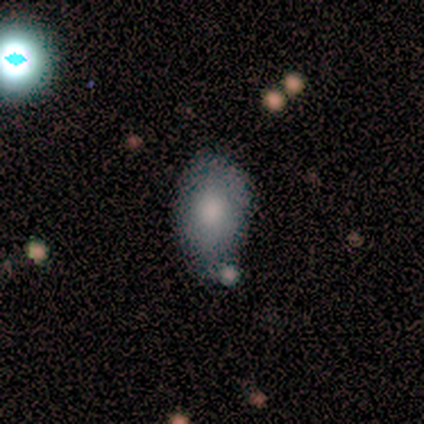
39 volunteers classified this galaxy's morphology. A smooth galaxy with no disk features (82%) that is in between round and cigar-shaped (94%).

Vote fractions:
- Smooth or featured? smooth: 82% / featured or disk: 13% / star or artifact: 5%
- How rounded? in between: 94% / round: 6% / cigar-shaped: 0%
- Merging? none: 57% / minor disturbance: 27% / merger: 11% / major disturbance: 5%